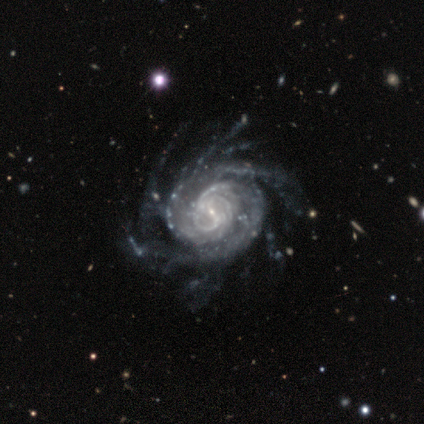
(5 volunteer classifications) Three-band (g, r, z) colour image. It shows a featured or disk galaxy (100%) with a strong bar (60%), more than 4 (40%, tied with can't tell) tight (60%) spiral arms (100%) and a moderate central bulge (40%, tied with small). Merging: major disturbance (60%).